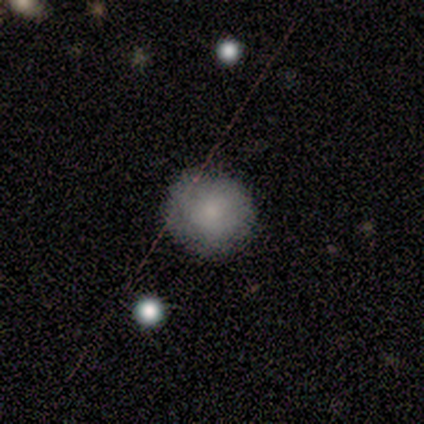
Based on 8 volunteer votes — This appears to be a smooth galaxy with no disk features (62%) that is round (100%). Merging: none (100%).